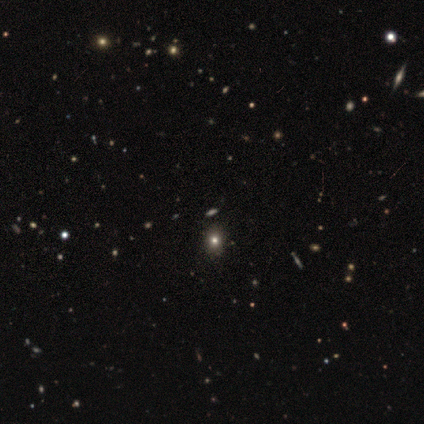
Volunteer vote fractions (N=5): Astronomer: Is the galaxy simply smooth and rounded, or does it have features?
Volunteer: star or artifact — 60%.